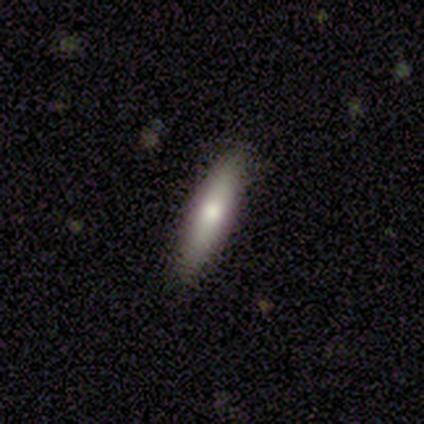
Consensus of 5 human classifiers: Smooth or featured? 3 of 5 (60%) said featured or disk. Edge-on disk? 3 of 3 (100%) said yes. Edge-on bulge? 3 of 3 (100%) said rounded. Merging? 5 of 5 (100%) said none.